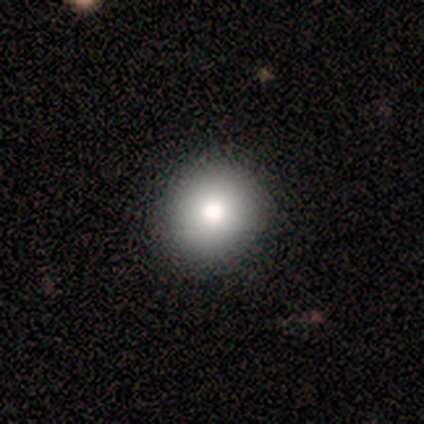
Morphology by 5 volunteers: smooth_or_featured: smooth (p=1.00)
how_rounded: round (p=1.00)
merging: none (p=1.00)